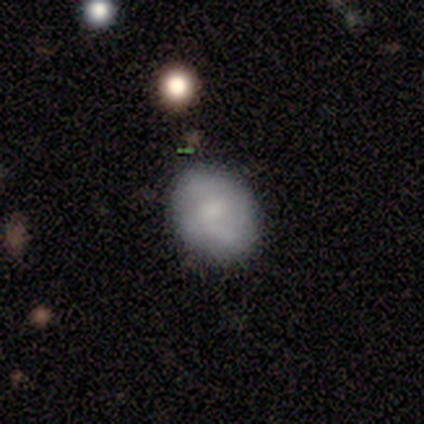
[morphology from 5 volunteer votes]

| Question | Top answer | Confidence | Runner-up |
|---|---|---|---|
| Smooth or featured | smooth | 60% | featured or disk (40%) |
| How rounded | in between | 100% | — |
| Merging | none | 80% | minor disturbance (20%) |